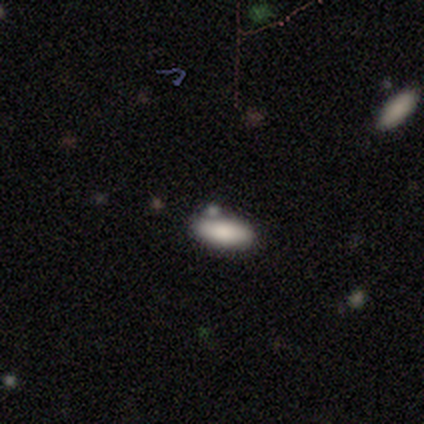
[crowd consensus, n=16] Morphology: type=smooth (100%); roundness=in between (100%); merging=none (69%).